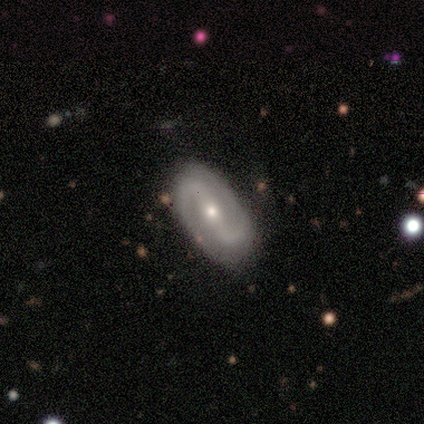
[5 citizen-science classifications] Smooth or featured? featured or disk (100%)
Edge-on disk? no (100%)
Bar? strong (60%)
Spiral arms? yes (100%)
Spiral winding? medium (60%)
Spiral arm count? 2 (100%)
Bulge size? small (60%)
Merging? none (100%)